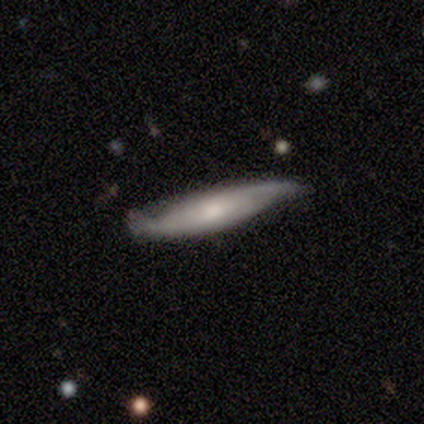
This appears to be a featured or disk galaxy (80%) viewed edge-on (100%) with a rounded central bulge (75%). Merging: none (60%).